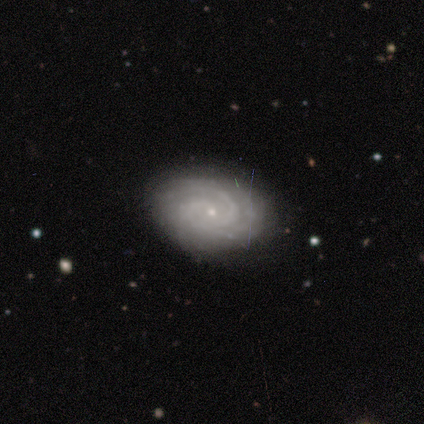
featured or disk 100%, smooth 0%, star or artifact 0%. Down the decision tree: edge-on disk — no (100%); bar — strong (33%, tied with weak and no); spiral arms — yes (100%); spiral arm count — 3 (67%); spiral winding — tight (100%); bulge size — small (100%); merging — none (100%).